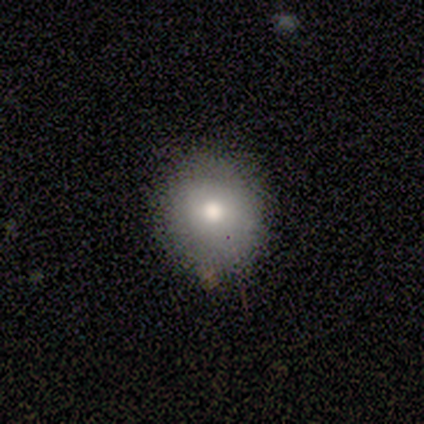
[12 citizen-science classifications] Smooth or featured: smooth — 75% (star or artifact — 17%)
How rounded: round — 89% (in between — 11%)
Merging: none — 80% (minor disturbance — 20%)